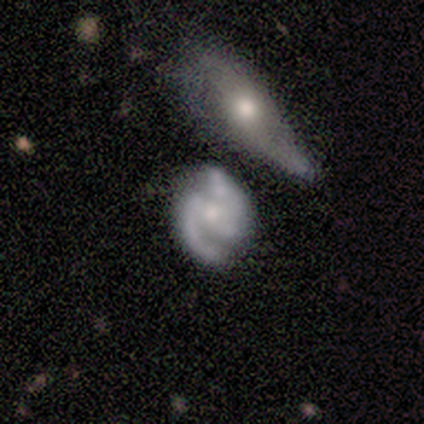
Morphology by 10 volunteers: Smooth or featured? 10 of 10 (100%) said featured or disk. Edge-on disk? 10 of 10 (100%) said no. Bar? 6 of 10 (60%) said strong. Spiral arms? 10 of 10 (100%) said yes. Spiral winding? 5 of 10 (50%) said medium. Spiral arm count? 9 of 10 (90%) said 2. Bulge size? 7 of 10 (70%) said moderate. Merging? 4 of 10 (40%) said none.